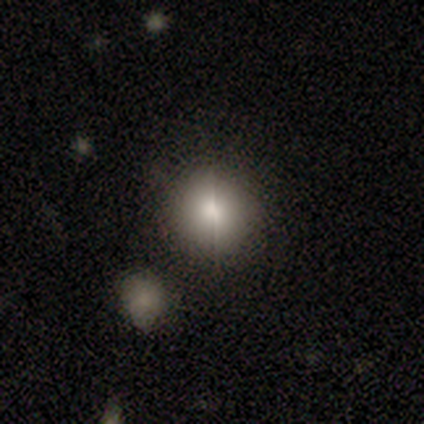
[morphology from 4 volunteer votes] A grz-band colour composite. It shows a star or artifact, not a galaxy (75%).